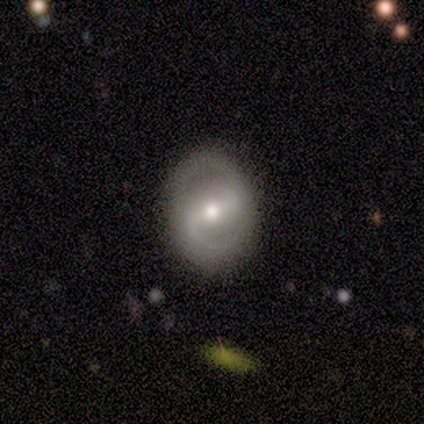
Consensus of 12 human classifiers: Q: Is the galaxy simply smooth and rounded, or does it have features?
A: featured or disk — 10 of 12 (83%).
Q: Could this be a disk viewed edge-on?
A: no — 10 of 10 (100%).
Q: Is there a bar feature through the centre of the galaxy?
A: strong — 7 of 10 (70%).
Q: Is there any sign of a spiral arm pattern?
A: yes — 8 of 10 (80%).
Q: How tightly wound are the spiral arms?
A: medium — 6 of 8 (75%).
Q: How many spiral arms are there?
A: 2 — 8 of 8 (100%).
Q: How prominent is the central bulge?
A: moderate — 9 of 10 (90%).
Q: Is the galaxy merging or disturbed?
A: none — 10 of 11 (91%).